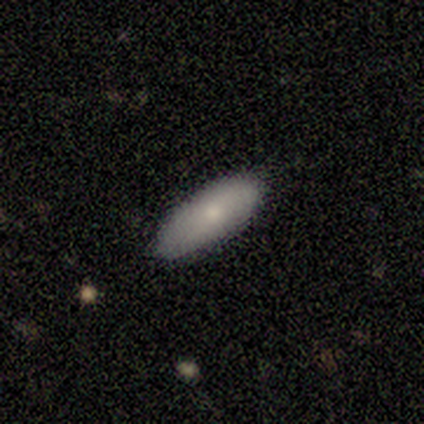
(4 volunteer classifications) Consensus on every question: smooth or featured — smooth (100%); how rounded — in between (100%); merging — none (100%).